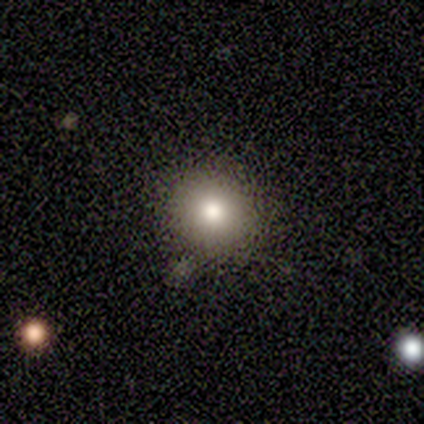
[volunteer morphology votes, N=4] A smooth galaxy with no disk features (75%) that is round (100%).

Vote fractions:
- Smooth or featured? smooth: 75% / featured or disk: 25% / star or artifact: 0%
- How rounded? round: 100% / in between: 0% / cigar-shaped: 0%
- Merging? none: 75% / minor disturbance: 25% / major disturbance: 0% / merger: 0%